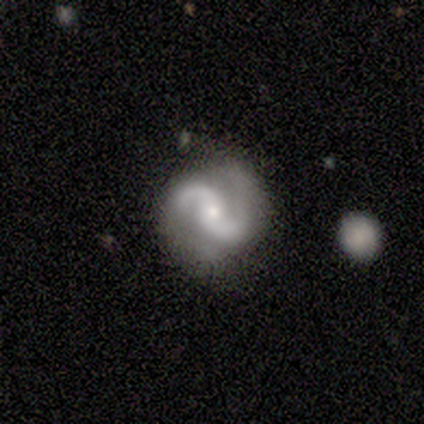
A featured or disk galaxy (80%) with no bar (100%), 2 (100%) medium (100%) spiral arms (100%) and a small central bulge (100%).

Vote fractions:
- Smooth or featured? featured or disk: 80% / star or artifact: 20% / smooth: 0%
- Edge-on disk? no: 100% / yes: 0%
- Bar? no: 100% / strong: 0% / weak: 0%
- Spiral arms? yes: 100% / no: 0%
- Spiral winding? medium: 100% / tight: 0% / loose: 0%
- Spiral arm count? 2: 100% / 1: 0% / 3: 0% / 4: 0% / more than 4: 0% / can't tell: 0%
- Bulge size? small: 100% / dominant: 0% / large: 0% / moderate: 0% / none: 0%
- Merging? none: 75% / minor disturbance: 25% / major disturbance: 0% / merger: 0%